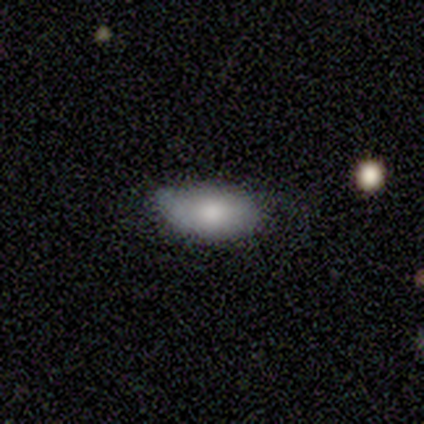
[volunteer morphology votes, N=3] Smooth or featured?
  - smooth: 67% *
  - featured or disk: 33%
  - star or artifact: 0%
How rounded?
  - in between: 100% *
  - round: 0%
  - cigar-shaped: 0%
Merging?
  - none: 67% *
  - minor disturbance: 33%
  - major disturbance: 0%
  - merger: 0%